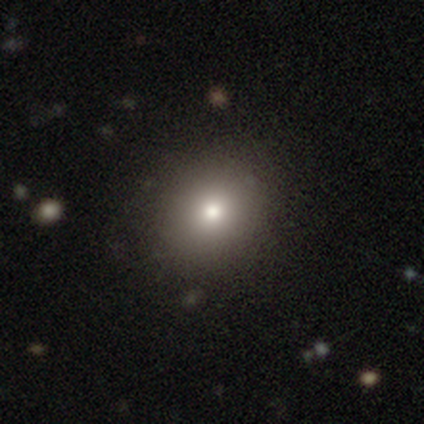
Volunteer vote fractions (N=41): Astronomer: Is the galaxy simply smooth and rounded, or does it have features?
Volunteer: smooth — 83%.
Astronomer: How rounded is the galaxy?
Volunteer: round — 76%.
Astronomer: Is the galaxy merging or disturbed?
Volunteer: none — 67%.